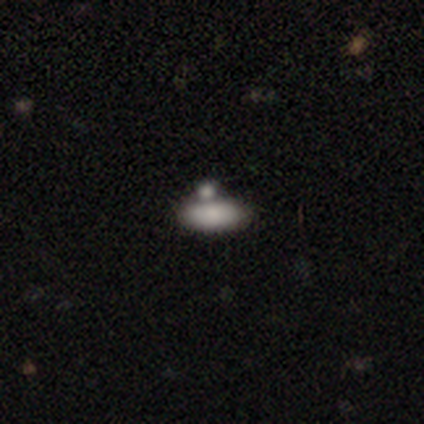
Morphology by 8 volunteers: smooth-or-featured: smooth: 100% | featured or disk: 0% | star or artifact: 0%
  how-rounded: in between: 100% | round: 0% | cigar-shaped: 0%
  merging: none: 75% | major disturbance: 12% | merger: 12% | minor disturbance: 0%